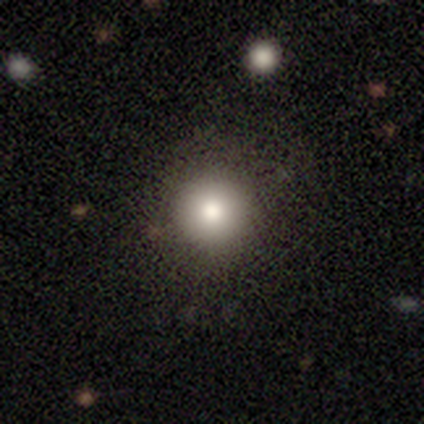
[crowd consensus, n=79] Morphology: type=smooth (78%); roundness=round (95%); merging=none (43%).